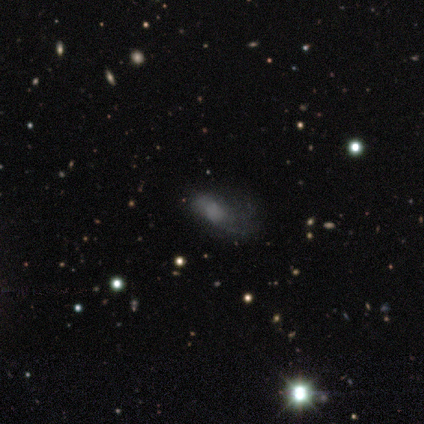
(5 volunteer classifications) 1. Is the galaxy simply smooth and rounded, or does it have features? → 40% smooth (tied), 40% featured or disk (tied), 20% star or artifact.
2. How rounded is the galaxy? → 50% in between (tied), 50% cigar-shaped (tied), 0% round.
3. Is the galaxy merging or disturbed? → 50% major disturbance, 25% none, 25% merger, 0% minor disturbance.